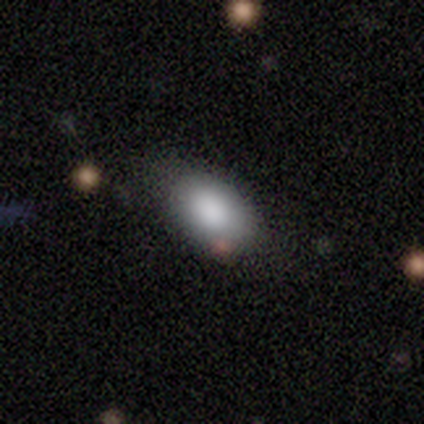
This is clearly a smooth galaxy (100%). How rounded: clearly in between (100%). Merging: clearly none (80%).